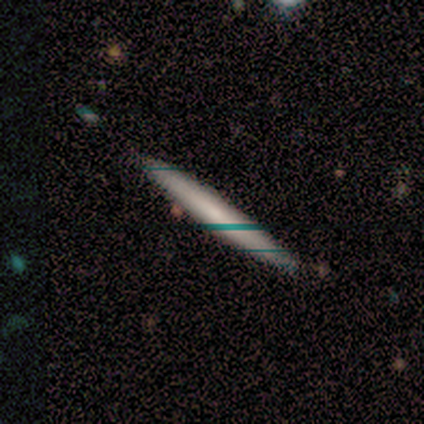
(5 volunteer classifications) This appears to be a smooth galaxy with no disk features (40%, tied with star or artifact) that is cigar-shaped (100%). Merging: none (100%).